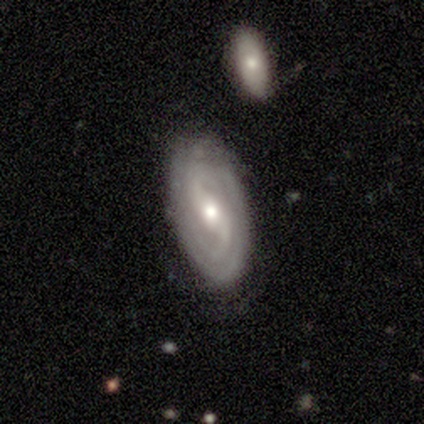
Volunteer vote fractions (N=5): Smooth or featured: featured or disk — 80% (star or artifact — 20%)
Edge-on disk: no — 100%
Bar: no — 50% (strong — 25%)
Spiral arms: yes — 100%
Spiral winding: tight — 50% (tied with medium — 50%)
Spiral arm count: 2 — 75% (can't tell — 25%)
Bulge size: moderate — 100%
Merging: none — 75% (minor disturbance — 25%)